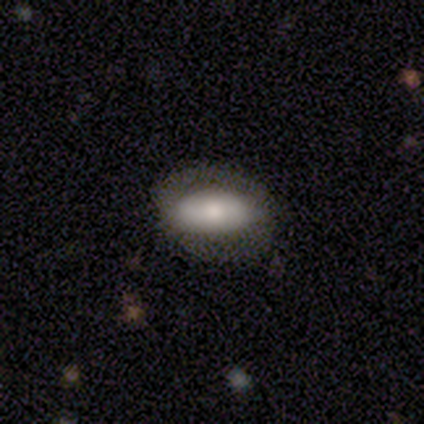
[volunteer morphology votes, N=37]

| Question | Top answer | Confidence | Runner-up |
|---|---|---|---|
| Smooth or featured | smooth | 76% | featured or disk (19%) |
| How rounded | in between | 96% | cigar-shaped (4%) |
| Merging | none | 57% | major disturbance (23%) |